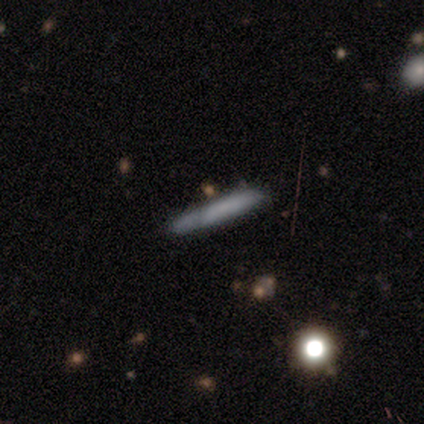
Volunteers were most divided on "smooth or featured" (2-way tie): smooth: 40%, featured or disk: 40%, star or artifact: 20%. More confident: how rounded — cigar-shaped (100%); merging — minor disturbance (75%).